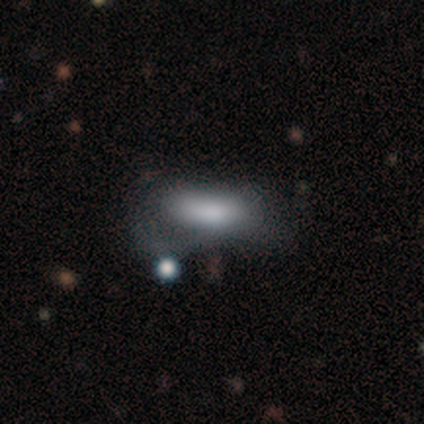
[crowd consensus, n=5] Q: Smooth or featured?
A: smooth (80%); runner-up: star or artifact (20%)
Q: How rounded?
A: in between (100%)
Q: Merging?
A: none (50%); runner-up: minor disturbance (25%)